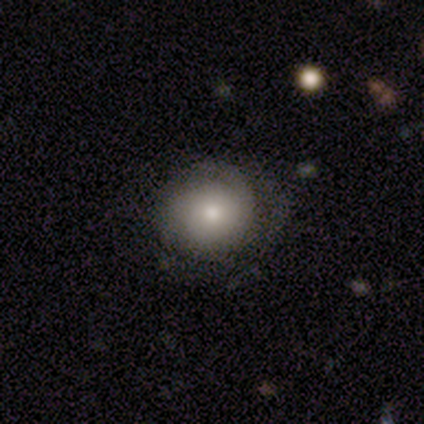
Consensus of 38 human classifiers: A smooth galaxy with no disk features (55%) that is round (86%).

Vote fractions:
- Smooth or featured? smooth: 55% / featured or disk: 39% / star or artifact: 5%
- How rounded? round: 86% / in between: 14% / cigar-shaped: 0%
- Merging? none: 61% / minor disturbance: 28% / major disturbance: 8% / merger: 3%